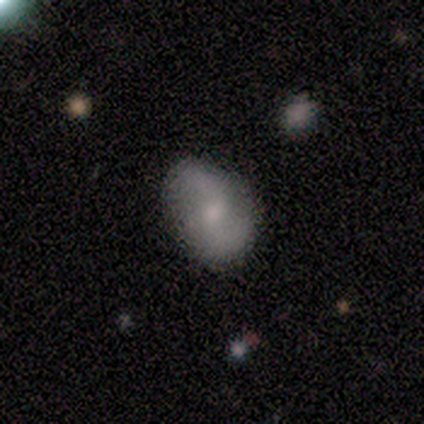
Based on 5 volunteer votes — smooth-or-featured: featured or disk: 60% | smooth: 40% | star or artifact: 0%
  disk-edge-on: no: 100% | yes: 0%
    bar: no: 67% | weak: 33% | strong: 0%
    has-spiral-arms: yes: 100% | no: 0%
      spiral-winding: loose: 67% | medium: 33% | tight: 0%
      spiral-arm-count: 2: 100% | 1: 0% | 3: 0% | 4: 0% | more than 4: 0% | can't tell: 0%
    bulge-size: none: 67% | small: 33% | dominant: 0% | large: 0% | moderate: 0%
  merging: none: 80% | minor disturbance: 20% | major disturbance: 0% | merger: 0%